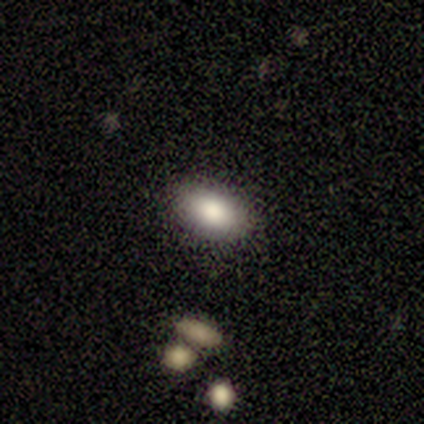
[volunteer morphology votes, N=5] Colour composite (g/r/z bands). It shows a smooth galaxy with no disk features (60%) that is in between round and cigar-shaped (100%). Merging: none (100%).